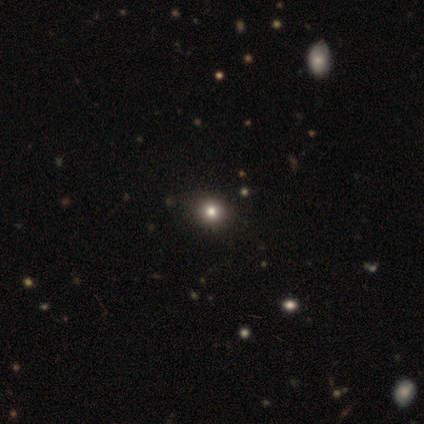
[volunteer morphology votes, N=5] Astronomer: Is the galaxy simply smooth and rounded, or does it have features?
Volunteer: smooth — 60% (runner-up: star or artifact, 40%).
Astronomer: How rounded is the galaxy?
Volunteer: round — 100%.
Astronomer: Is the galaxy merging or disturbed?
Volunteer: none — 67%.